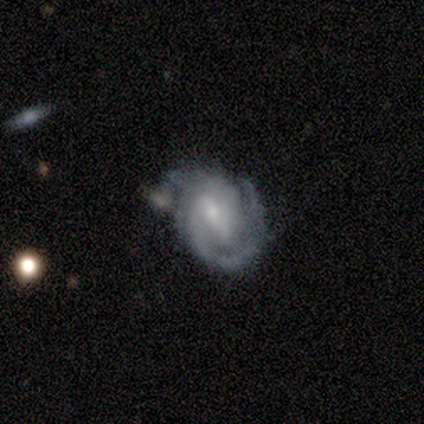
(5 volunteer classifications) This appears to be a featured or disk galaxy (100%) with no bar (60%), 1 (40%, tied with 3) tight (40%, tied with medium) spiral arms (100%) and a small central bulge (60%). Merging: none (60%).